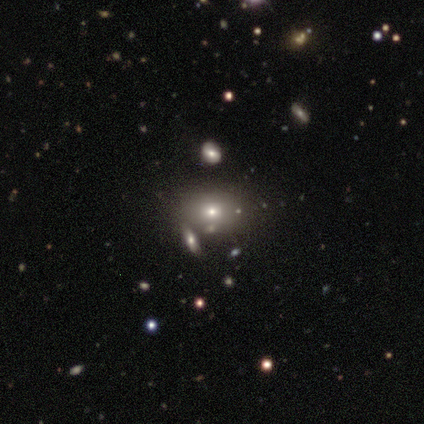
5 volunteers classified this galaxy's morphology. A smooth galaxy with no disk features (80%) that is round (75%). Merging: none (80%).